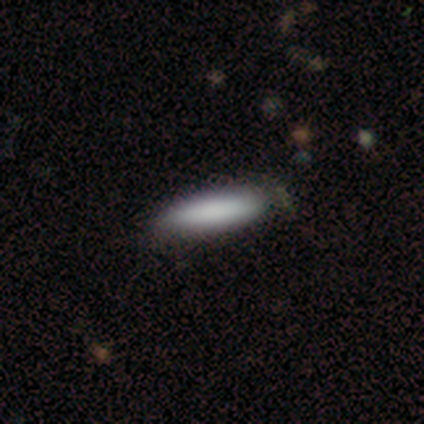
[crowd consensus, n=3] Smooth or featured? 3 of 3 (100%) said smooth. How rounded? 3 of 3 (100%) said cigar-shaped. Merging? 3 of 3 (100%) said none.